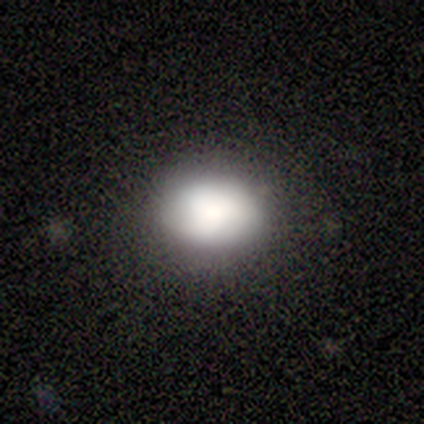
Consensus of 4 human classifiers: Smooth or featured: smooth — 75% (featured or disk — 25%)
How rounded: in between — 67% (round — 33%)
Merging: none — 75% (minor disturbance — 25%)